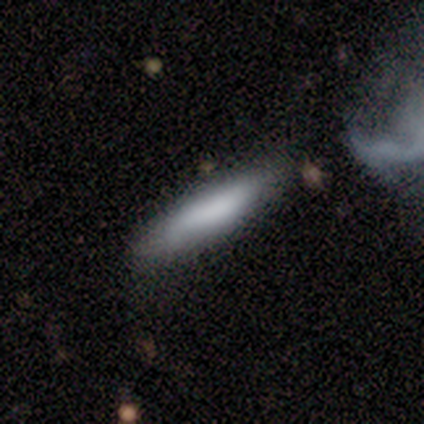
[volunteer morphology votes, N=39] This is likely a smooth galaxy (67%). How rounded: clearly cigar-shaped (88%). Merging: possibly none (59%).